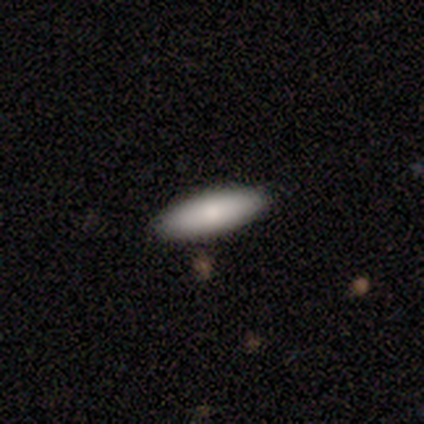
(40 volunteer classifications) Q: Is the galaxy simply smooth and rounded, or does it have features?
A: smooth — 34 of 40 (85%).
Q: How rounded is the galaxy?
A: in between — 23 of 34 (68%).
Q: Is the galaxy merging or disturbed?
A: none — 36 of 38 (95%).